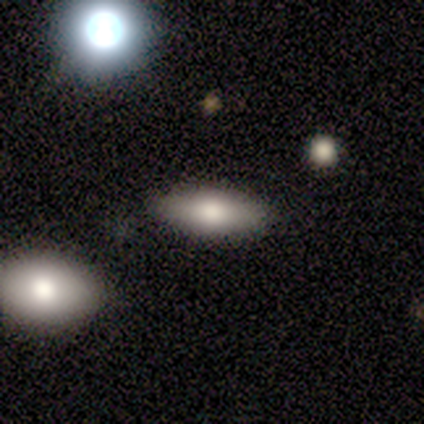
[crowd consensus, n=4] A smooth galaxy with no disk features (75%) that is in between round and cigar-shaped (100%). Merging: none (67%).